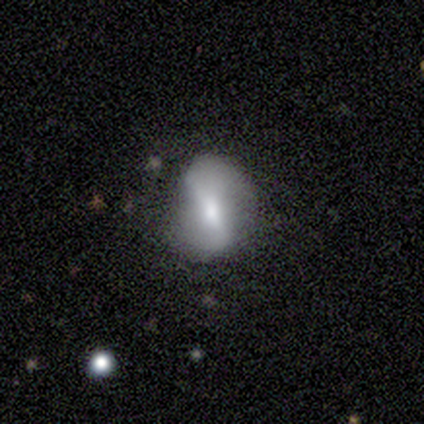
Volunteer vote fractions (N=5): Smooth or featured? 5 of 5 (100%) said featured or disk. Edge-on disk? 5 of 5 (100%) said no. Bar? 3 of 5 (60%) said weak. Spiral arms? 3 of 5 (60%) said yes. Spiral winding? 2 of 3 (67%) said loose. Spiral arm count? 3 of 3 (100%) said 2. Bulge size? 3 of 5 (60%) said moderate. Merging? 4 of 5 (80%) said none.